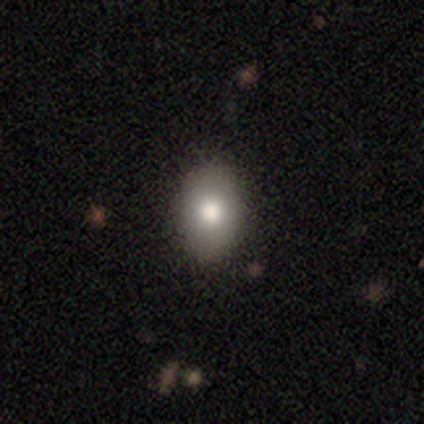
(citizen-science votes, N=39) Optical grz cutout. It shows a smooth galaxy with no disk features (77%) that is in between round and cigar-shaped (73%). Merging: none (97%).